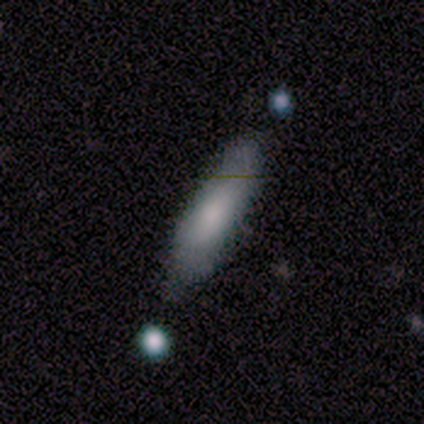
This is likely a smooth galaxy (75%). How rounded: clearly cigar-shaped (100%). Merging: likely none (75%).